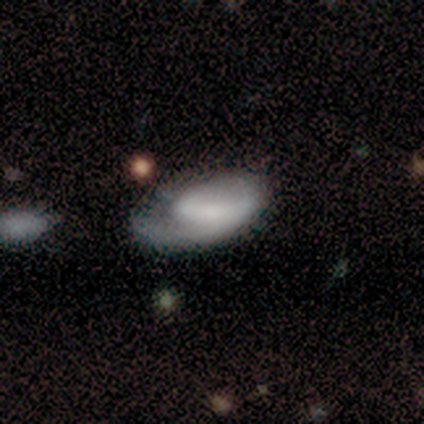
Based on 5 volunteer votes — Q: Smooth or featured?
A: smooth (80%); runner-up: featured or disk (20%)
Q: How rounded?
A: in between (75%); runner-up: cigar-shaped (25%)
Q: Merging?
A: major disturbance (80%); runner-up: minor disturbance (20%)